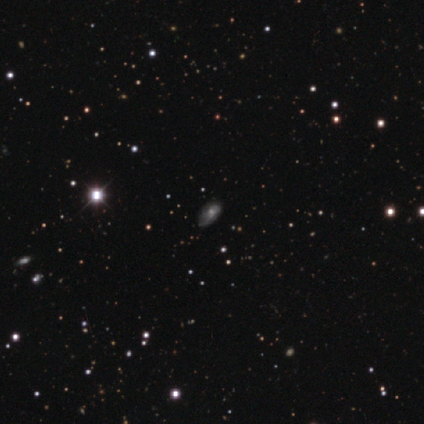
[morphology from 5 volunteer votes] smooth-or-featured: star or artifact: 60% | featured or disk: 40% | smooth: 0%